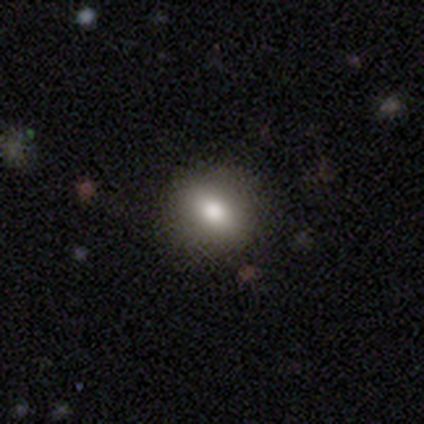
smooth-or-featured: smooth: 100% | featured or disk: 0% | star or artifact: 0%
  how-rounded: round: 60% | in between: 20% | cigar-shaped: 20%
  merging: none: 100% | minor disturbance: 0% | major disturbance: 0% | merger: 0%